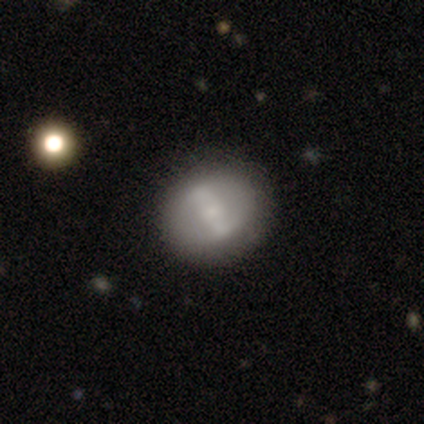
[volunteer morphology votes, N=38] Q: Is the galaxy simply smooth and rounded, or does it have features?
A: featured or disk — 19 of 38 (50%).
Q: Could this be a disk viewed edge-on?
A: no — 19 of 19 (100%).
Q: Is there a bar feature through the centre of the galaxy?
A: strong — 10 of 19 (53%).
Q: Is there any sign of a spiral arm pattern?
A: yes — 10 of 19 (53%).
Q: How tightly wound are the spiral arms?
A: loose — 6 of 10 (60%).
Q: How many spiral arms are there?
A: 2 — 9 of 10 (90%).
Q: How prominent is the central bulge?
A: small — 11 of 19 (58%).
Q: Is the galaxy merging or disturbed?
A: none — 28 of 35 (80%).